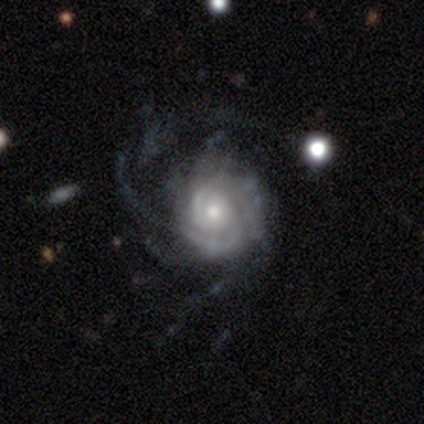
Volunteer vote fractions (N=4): Overall: featured or disk (75%). Edge-on disk: no (100%). Bar: no (67%; weak 33%). Spiral arms: yes (100%). Spiral arm count: 2 (33%, tied with 3 and can't tell). Spiral winding: tight (100%). Bulge size: moderate (67%; small 33%). Merging: major disturbance (75%).